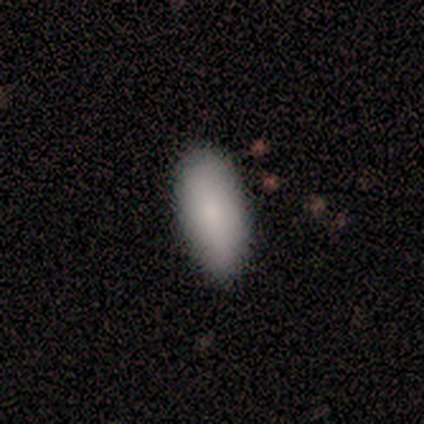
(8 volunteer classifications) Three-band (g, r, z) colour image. It shows a smooth galaxy with no disk features (75%) that is in between round and cigar-shaped (83%). Merging: none (100%).